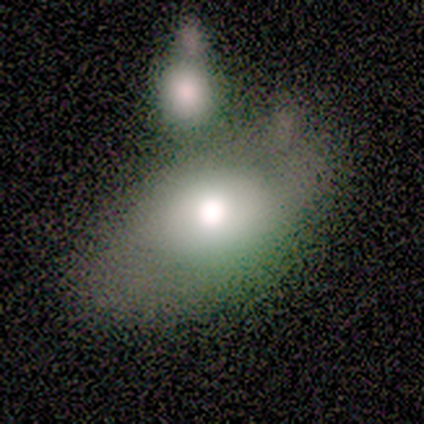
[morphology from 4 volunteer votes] A smooth galaxy with no disk features (75%) that is in between round and cigar-shaped (100%). Merging: none (50%, tied with merger).